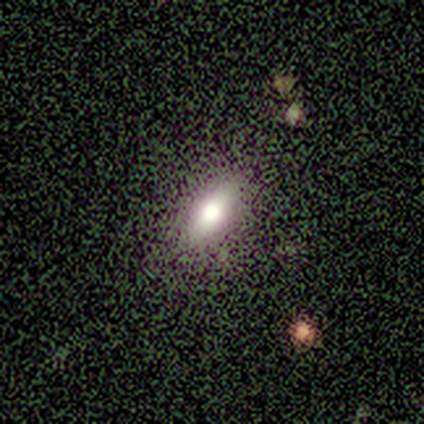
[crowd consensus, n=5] Smooth or featured: smooth — 40% (tied with featured or disk — 40%)
How rounded: in between — 50% (tied with cigar-shaped — 50%)
Merging: none — 50% (minor disturbance — 25%)